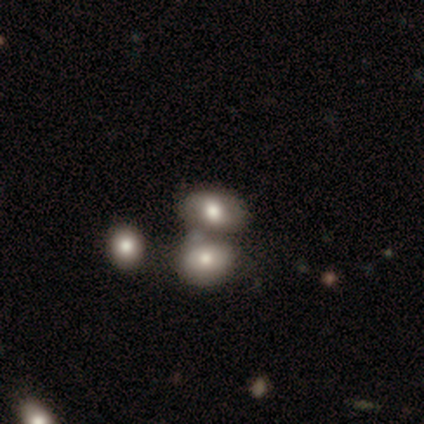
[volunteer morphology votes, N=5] A smooth galaxy with no disk features (60%) that is round (67%).

Vote fractions:
- Smooth or featured? smooth: 60% / featured or disk: 40% / star or artifact: 0%
- How rounded? round: 67% / in between: 33% / cigar-shaped: 0%
- Merging? merger: 80% / minor disturbance: 20% / none: 0% / major disturbance: 0%